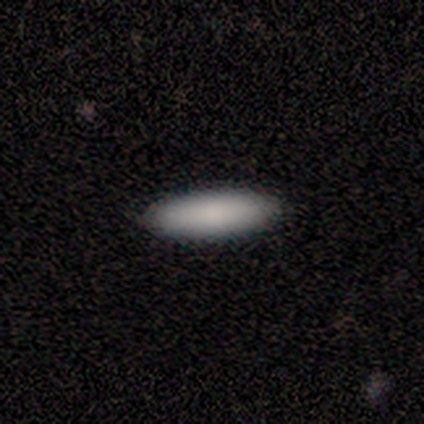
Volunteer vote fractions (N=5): Smooth or featured?
  - smooth: 100% *
  - featured or disk: 0%
  - star or artifact: 0%
How rounded?
  - in between: 60% *
  - cigar-shaped: 40%
  - round: 0%
Merging?
  - none: 100% *
  - minor disturbance: 0%
  - major disturbance: 0%
  - merger: 0%